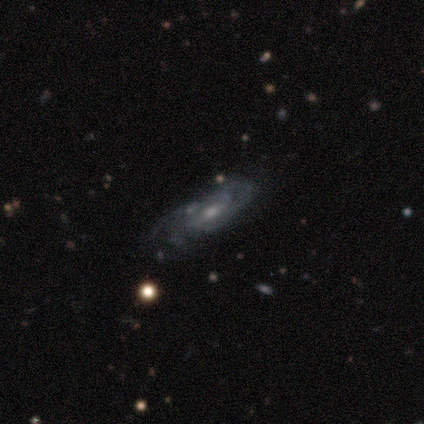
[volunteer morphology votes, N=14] Smooth or featured? 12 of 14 (86%) said featured or disk. Edge-on disk? 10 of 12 (83%) said no. Bar? 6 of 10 (60%) said weak. Spiral arms? 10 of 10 (100%) said yes. Spiral winding? 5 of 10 (50%) said medium. Spiral arm count? 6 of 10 (60%) said can't tell. Bulge size? 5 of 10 (50%) said moderate. Merging? 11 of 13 (85%) said none.